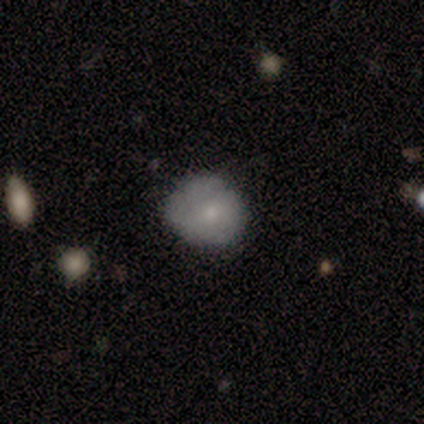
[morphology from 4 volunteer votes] smooth 100%, featured or disk 0%, star or artifact 0%. Down the decision tree: how rounded — round (50%, tied with in between); merging — none (50%).